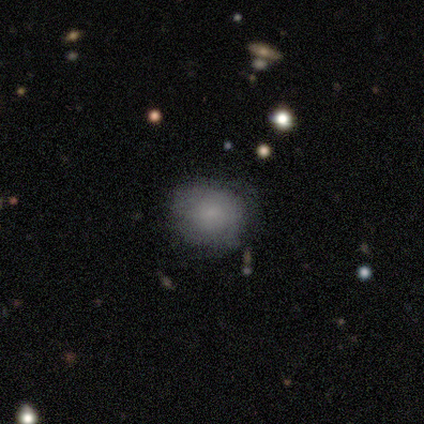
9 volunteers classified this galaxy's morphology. smooth_or_featured: smooth (p=0.56) [alt: featured or disk p=0.44]
how_rounded: round (p=1.00)
merging: none (p=0.78) [alt: minor disturbance p=0.22]